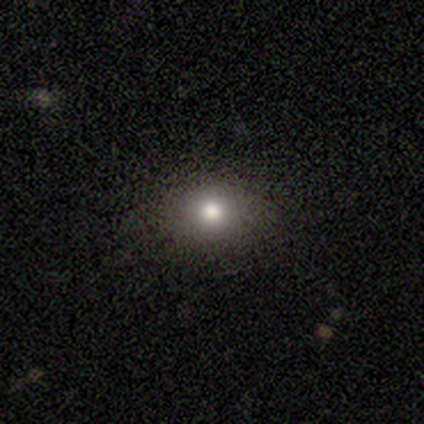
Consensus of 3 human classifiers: Overall: featured or disk (67%; smooth 33%). Edge-on disk: no (100%). Bar: strong (50%, tied with no). Spiral arms: no (100%). Bulge size: moderate (50%, tied with small). Merging: none (67%; merger 33%).